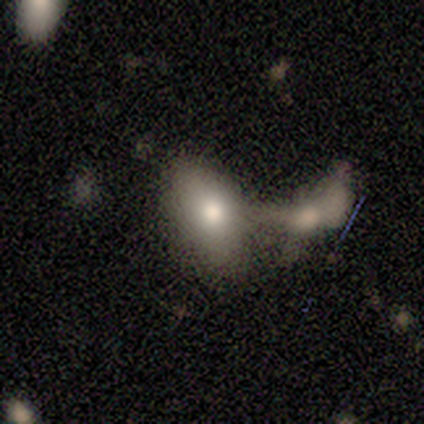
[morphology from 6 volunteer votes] smooth 83%, featured or disk 17%, star or artifact 0%. Down the decision tree: how rounded — in between (100%); merging — merger (83%).